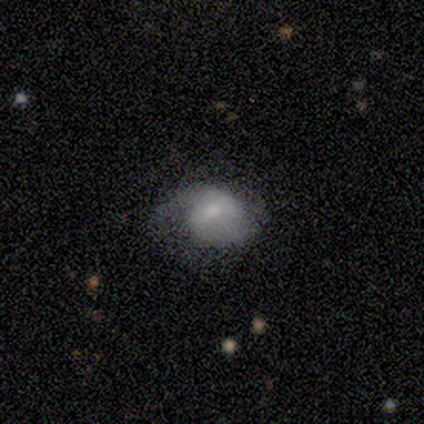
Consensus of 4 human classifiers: Overall: smooth (100%). How rounded: in between (100%). Merging: none (50%; minor disturbance 25%).